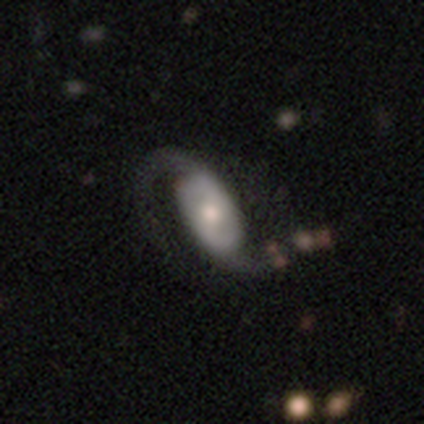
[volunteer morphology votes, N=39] Smooth or featured?
  - featured or disk: 67% *
  - smooth: 31%
  - star or artifact: 3%
Edge-on disk?
  - no: 96% *
  - yes: 4%
Bar?
  - no: 52% *
  - weak: 40%
  - strong: 8%
Spiral arms?
  - yes: 92% *
  - no: 8%
Spiral winding?
  - loose: 52% *
  - medium: 43%
  - tight: 4%
Spiral arm count?
  - 2: 100% *
  - 1: 0%
  - 3: 0%
  - 4: 0%
  - more than 4: 0%
  - can't tell: 0%
Bulge size?
  - moderate: 52% *
  - small: 32%
  - large: 8%
  - dominant: 4%
  - none: 4%
Merging?
  - none: 32% *
  - major disturbance: 26%
  - minor disturbance: 5%
  - merger: 3%